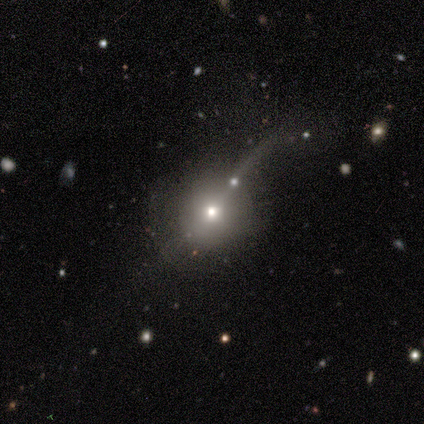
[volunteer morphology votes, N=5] A smooth galaxy with no disk features (40%, tied with featured or disk) that is round (100%). Merging: none (75%).